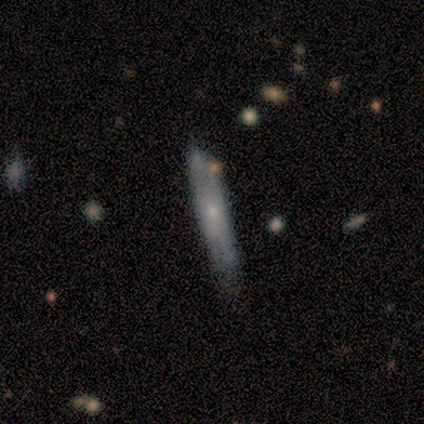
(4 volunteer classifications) Smooth or featured?
  - smooth: 50% * (tied)
  - featured or disk: 50% * (tied)
  - star or artifact: 0%
How rounded?
  - cigar-shaped: 100% *
  - round: 0%
  - in between: 0%
Merging?
  - none: 50% * (tied)
  - minor disturbance: 50% * (tied)
  - major disturbance: 0%
  - merger: 0%